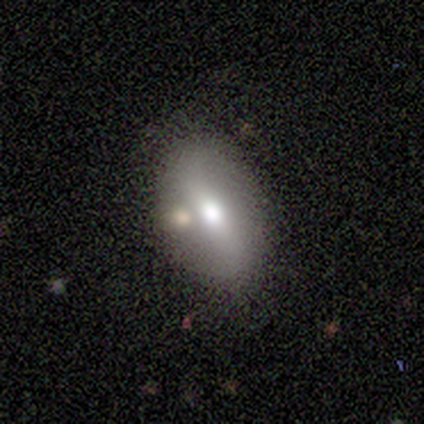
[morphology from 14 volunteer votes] Volunteers were most divided on "smooth or featured": featured or disk: 57%, smooth: 43%, star or artifact: 0%. More confident: edge-on bulge — rounded (100%); merging — none (86%); edge-on disk — yes (62%).